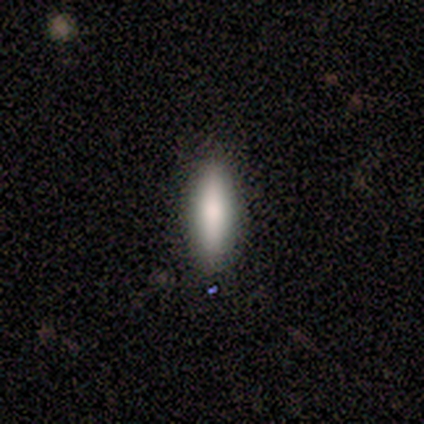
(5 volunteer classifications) Smooth or featured: smooth — 80% (featured or disk — 20%)
How rounded: in between — 50% (tied with cigar-shaped — 50%)
Merging: none — 80% (minor disturbance — 20%)